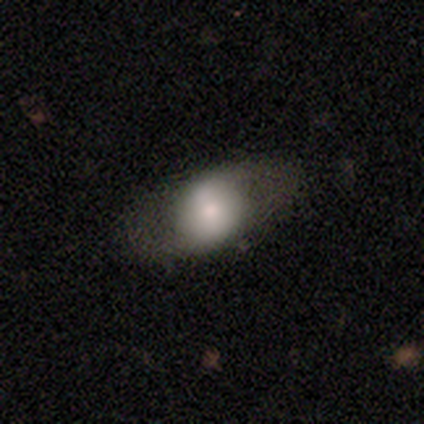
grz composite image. It shows a smooth galaxy with no disk features (52%) that is in between round and cigar-shaped (70%). Merging: none (79%).